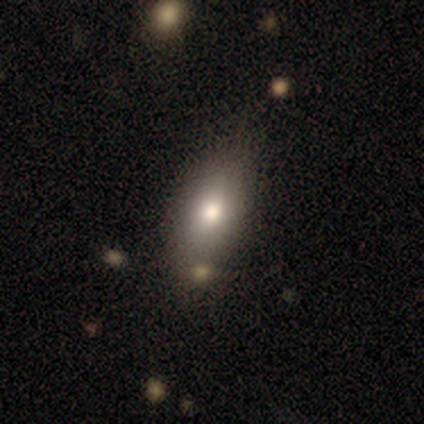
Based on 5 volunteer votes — Volunteers were most divided on "merging": none: 75%, merger: 25%, minor disturbance: 0%, major disturbance: 0%. More confident: how rounded — in between (100%); smooth or featured — smooth (80%).